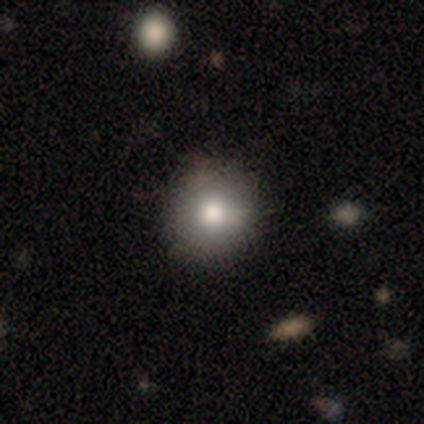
This appears to be a smooth galaxy with no disk features (73%) that is round (94%). Merging: none (88%).